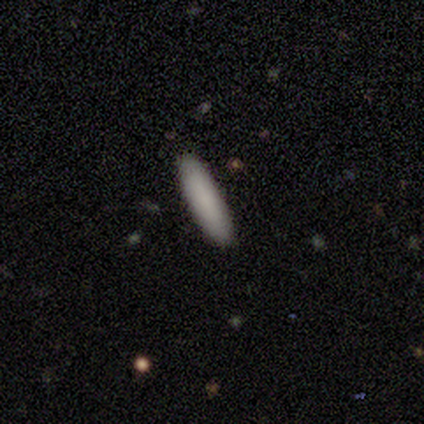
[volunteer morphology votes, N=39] smooth_or_featured: smooth (p=0.85) [alt: star or artifact p=0.10]
how_rounded: cigar-shaped (p=0.82) [alt: in between p=0.18]
merging: none (p=0.94) [alt: minor disturbance p=0.06]